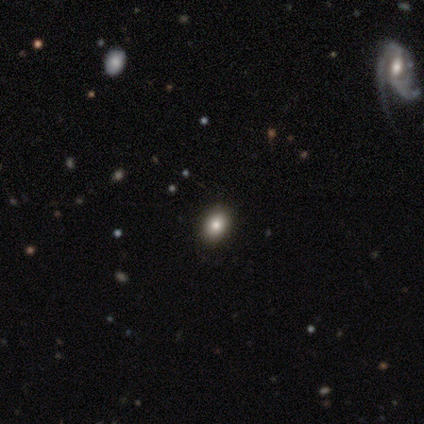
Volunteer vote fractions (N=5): Volunteers were most divided on "how rounded" (2-way tie): round: 50%, in between: 50%, cigar-shaped: 0%. More confident: smooth or featured — smooth (80%); merging — none (80%).